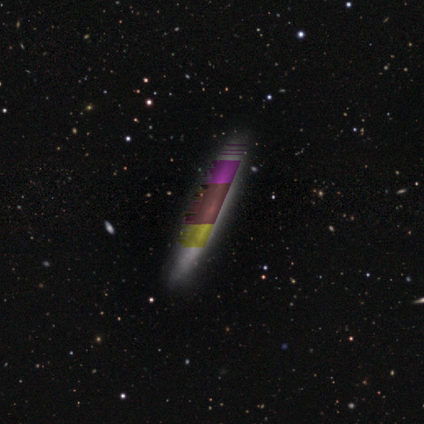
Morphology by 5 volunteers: Smooth or featured? 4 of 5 (80%) said smooth. How rounded? 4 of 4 (100%) said cigar-shaped. Merging? 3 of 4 (75%) said none.